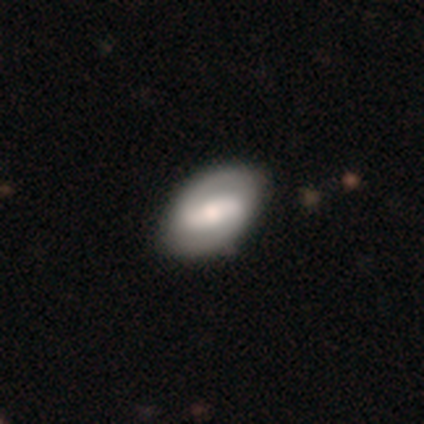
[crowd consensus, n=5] smooth-or-featured: smooth: 80% | featured or disk: 20% | star or artifact: 0%
  how-rounded: in between: 100% | round: 0% | cigar-shaped: 0%
  merging: none: 60% | minor disturbance: 40% | major disturbance: 0% | merger: 0%